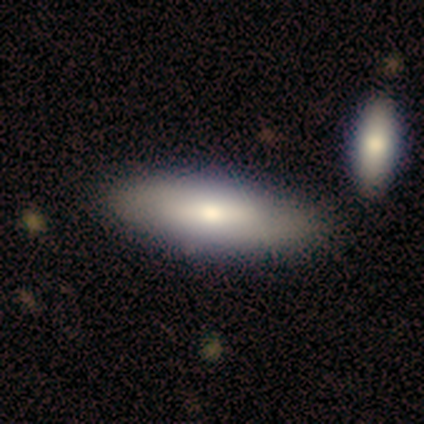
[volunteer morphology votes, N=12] Smooth or featured? smooth (75%)
How rounded? in between (67%)
Merging? none (83%)